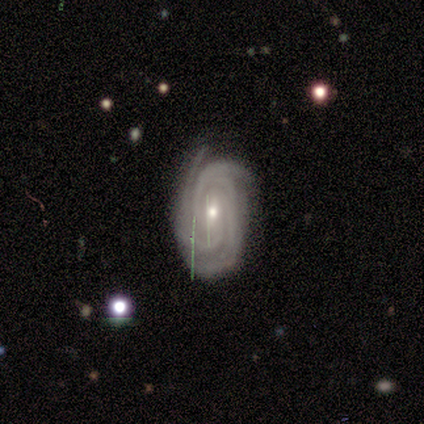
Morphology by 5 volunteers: featured or disk 100%, smooth 0%, star or artifact 0%. Down the decision tree: edge-on disk — no (100%); bar — weak (60%); spiral arms — yes (100%); spiral arm count — 3 (80%); spiral winding — medium (80%); bulge size — small (60%); merging — none (60%).